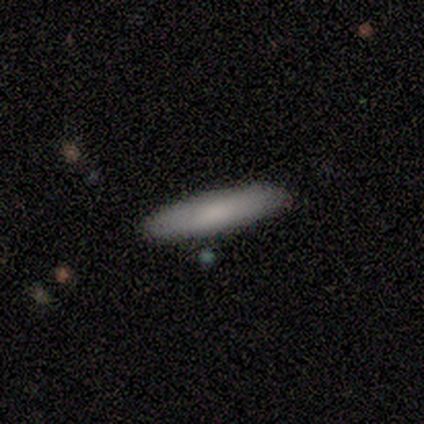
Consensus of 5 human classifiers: smooth 80%, featured or disk 20%, star or artifact 0%. Down the decision tree: how rounded — cigar-shaped (100%); merging — none (100%).